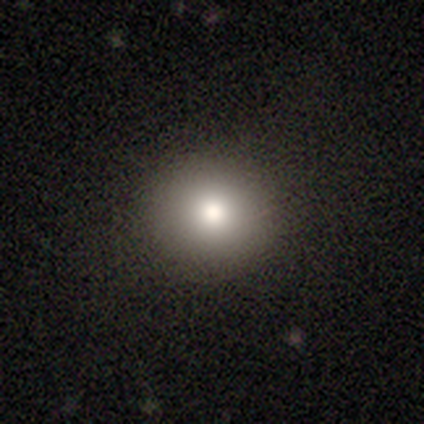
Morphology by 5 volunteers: Volunteers were most divided on "smooth or featured": smooth: 80%, star or artifact: 20%, featured or disk: 0%. More confident: how rounded — round (100%); merging — none (100%).